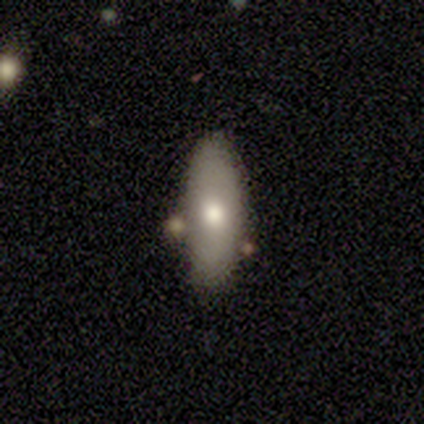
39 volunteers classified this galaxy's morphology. type=smooth (72%); roundness=in between (79%); merging=none (71%).